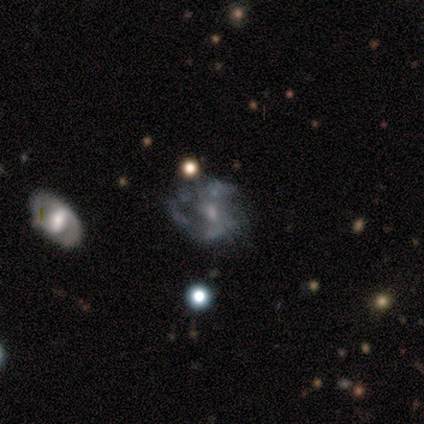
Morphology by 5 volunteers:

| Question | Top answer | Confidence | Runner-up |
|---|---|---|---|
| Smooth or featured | featured or disk | 100% | — |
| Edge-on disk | no | 100% | — |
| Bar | weak | 60% | no (40%) |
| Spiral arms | no | 80% | yes (20%) |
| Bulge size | large | 40% | tied: small (40%) |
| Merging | none | 60% | minor disturbance (20%) |